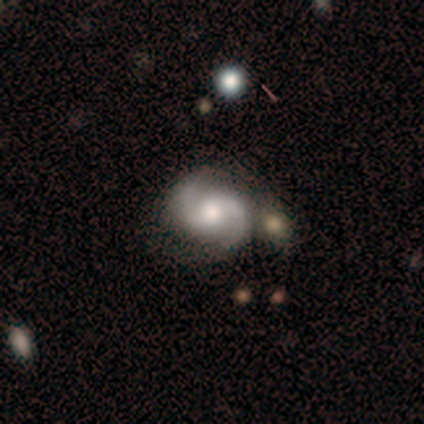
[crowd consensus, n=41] Smooth or featured? featured or disk (85%)
Edge-on disk? no (100%)
Bar? no (63%)
Spiral arms? yes (94%)
Spiral winding? medium (73%)
Spiral arm count? 2 (97%)
Bulge size? moderate (57%)
Merging? none (55%)